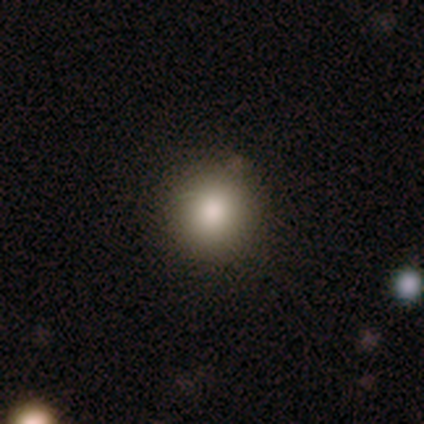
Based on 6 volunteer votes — Smooth or featured?
  - smooth: 100% *
  - featured or disk: 0%
  - star or artifact: 0%
How rounded?
  - round: 100% *
  - in between: 0%
  - cigar-shaped: 0%
Merging?
  - none: 83% *
  - minor disturbance: 17%
  - major disturbance: 0%
  - merger: 0%